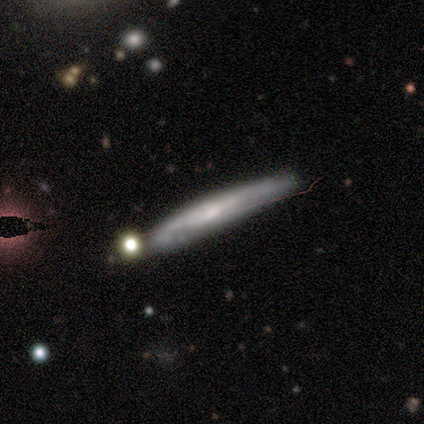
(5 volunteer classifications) Smooth or featured?
  - featured or disk: 100% *
  - smooth: 0%
  - star or artifact: 0%
Edge-on disk?
  - yes: 100% *
  - no: 0%
Edge-on bulge?
  - rounded: 60% *
  - none: 40%
  - boxy: 0%
Merging?
  - none: 60% *
  - minor disturbance: 20%
  - major disturbance: 20%
  - merger: 0%